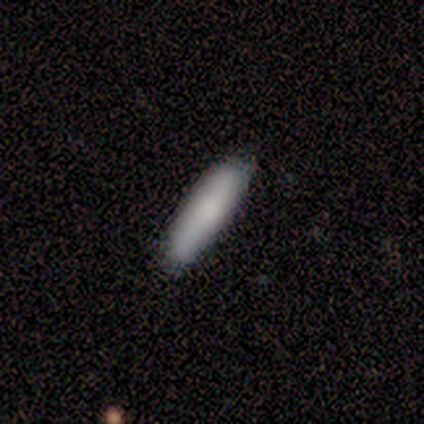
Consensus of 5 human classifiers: Q: Smooth or featured?
A: smooth (60%); runner-up: featured or disk (40%)
Q: How rounded?
A: in between (67%); runner-up: cigar-shaped (33%)
Q: Merging?
A: none (100%)